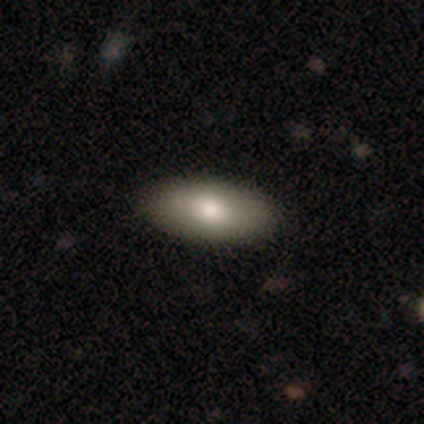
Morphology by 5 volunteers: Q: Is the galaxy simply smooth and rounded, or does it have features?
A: smooth — 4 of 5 (80%).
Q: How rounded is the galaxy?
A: in between — 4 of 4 (100%).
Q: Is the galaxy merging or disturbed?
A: none — 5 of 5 (100%).